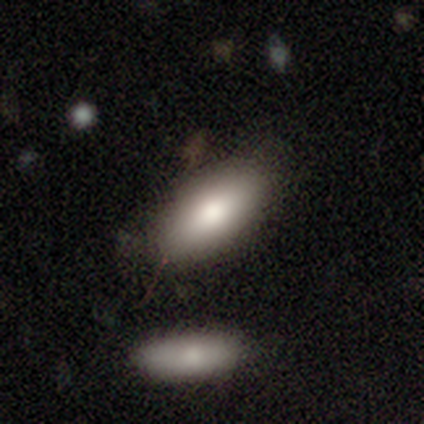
A smooth galaxy with no disk features (83%) that is in between round and cigar-shaped (100%). Merging: none (50%).